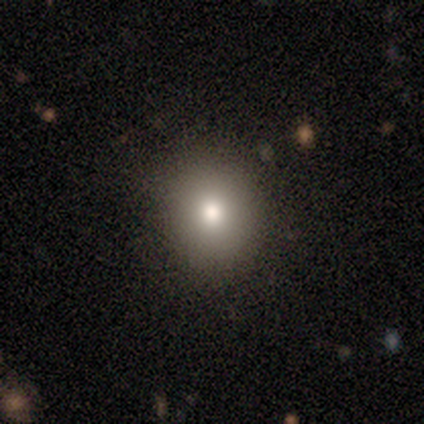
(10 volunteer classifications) Q: Smooth or featured?
A: smooth (90%); runner-up: featured or disk (10%)
Q: How rounded?
A: round (78%); runner-up: in between (22%)
Q: Merging?
A: none (80%); runner-up: minor disturbance (20%)